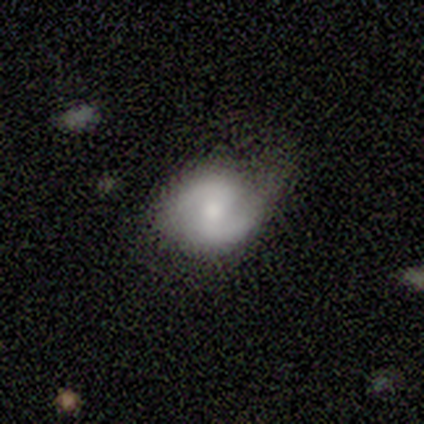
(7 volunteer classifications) smooth-or-featured: featured or disk: 86% | smooth: 14% | star or artifact: 0%
  disk-edge-on: no: 100% | yes: 0%
    bar: weak: 50% (tied) | no: 50% (tied) | strong: 0%
    has-spiral-arms: yes: 100% | no: 0%
      spiral-winding: tight: 50% | loose: 33% | medium: 17%
      spiral-arm-count: 2: 83% | 1: 17% | 3: 0% | 4: 0% | more than 4: 0% | can't tell: 0%
    bulge-size: small: 50% | moderate: 33% | none: 17% | dominant: 0% | large: 0%
  merging: none: 86% | minor disturbance: 14% | major disturbance: 0% | merger: 0%